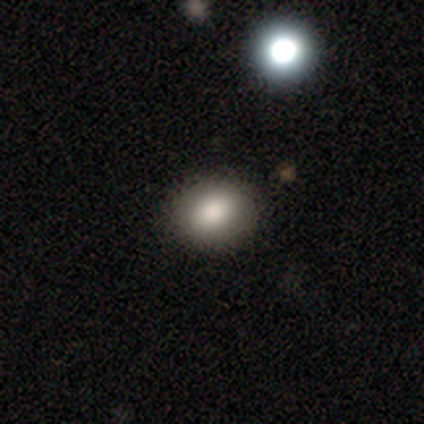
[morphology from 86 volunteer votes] A smooth galaxy with no disk features (81%) that is round (50%, tied with in between). Merging: none (89%).